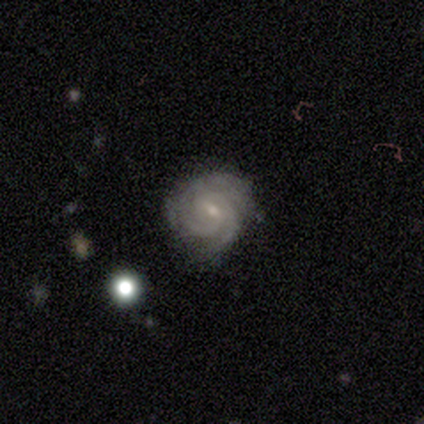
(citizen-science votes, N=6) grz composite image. It shows a featured or disk galaxy (83%) with a weak bar (80%), tight (60%) spiral arms (100%) and a small central bulge (80%). Merging: none (50%, tied with minor disturbance).